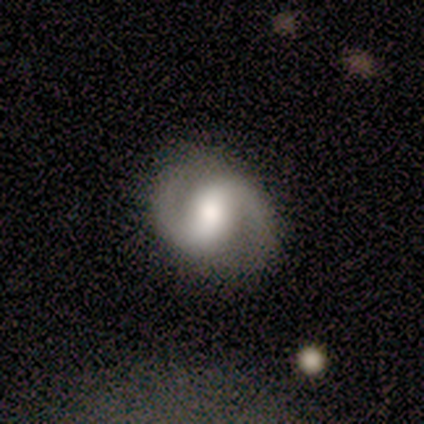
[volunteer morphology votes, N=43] Smooth or featured? 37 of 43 (86%) said featured or disk. Edge-on disk? 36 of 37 (97%) said no. Bar? 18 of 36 (50%) said strong. Spiral arms? 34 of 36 (94%) said yes. Spiral winding? 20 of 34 (59%) said medium. Spiral arm count? 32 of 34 (94%) said 2. Bulge size? 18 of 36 (50%) said moderate. Merging? 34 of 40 (85%) said none.